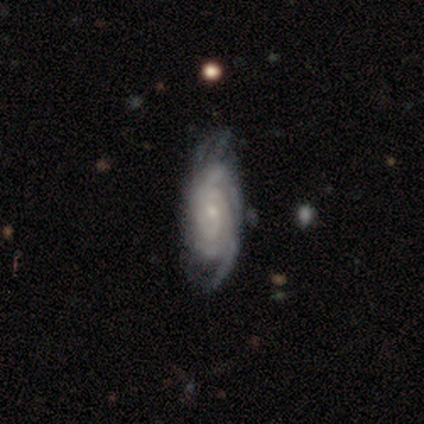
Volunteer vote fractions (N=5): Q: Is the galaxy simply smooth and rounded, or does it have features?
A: featured or disk — 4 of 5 (80%).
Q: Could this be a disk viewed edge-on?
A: no — 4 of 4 (100%).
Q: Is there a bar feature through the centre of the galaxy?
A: no — 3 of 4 (75%).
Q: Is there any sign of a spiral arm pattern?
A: yes — 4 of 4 (100%).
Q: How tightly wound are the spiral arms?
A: tight — 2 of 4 (50%, tied with medium).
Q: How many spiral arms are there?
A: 4 — 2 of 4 (50%).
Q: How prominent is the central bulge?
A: small — 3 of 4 (75%).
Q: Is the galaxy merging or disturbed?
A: none — 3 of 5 (60%).